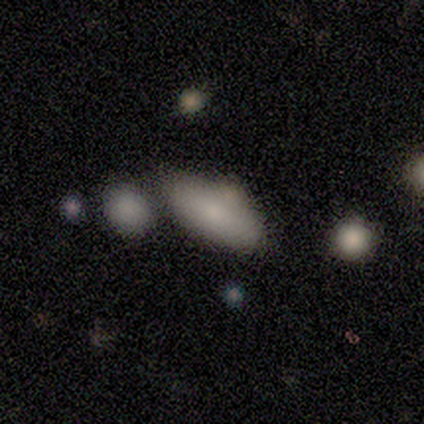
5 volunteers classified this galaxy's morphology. Smooth or featured? 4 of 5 (80%) said smooth. How rounded? 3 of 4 (75%) said in between. Merging? 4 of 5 (80%) said none.